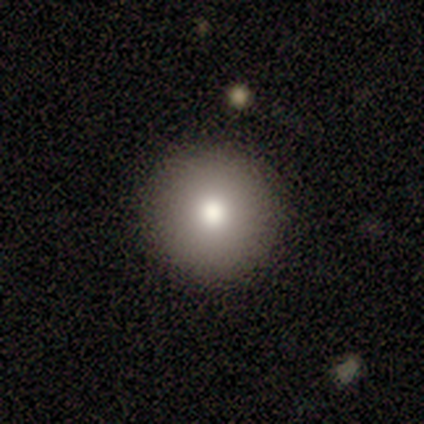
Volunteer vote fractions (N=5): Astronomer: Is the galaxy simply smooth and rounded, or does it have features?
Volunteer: smooth — 100%.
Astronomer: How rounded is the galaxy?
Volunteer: round — 100%.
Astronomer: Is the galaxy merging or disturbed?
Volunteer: none — 100%.